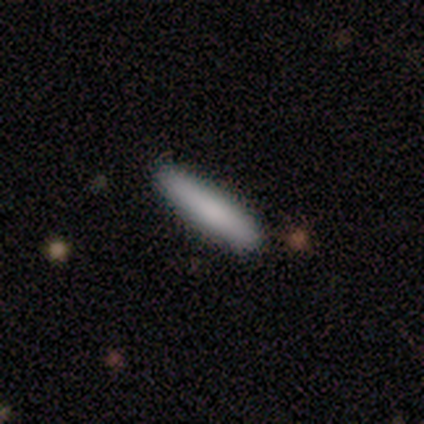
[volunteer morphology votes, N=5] smooth_or_featured: smooth (p=0.60) [alt: featured or disk p=0.20]
how_rounded: cigar-shaped (p=0.67) [alt: in between p=0.33]
merging: none (p=1.00)